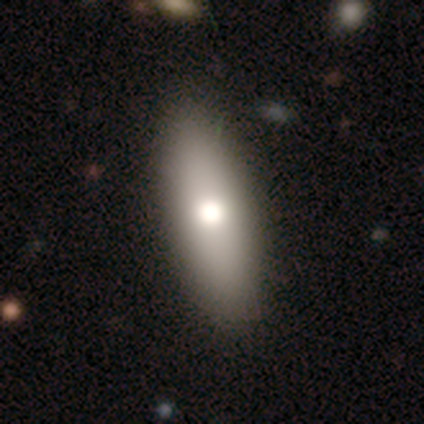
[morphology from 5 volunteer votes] A smooth galaxy with no disk features (100%) that is in between round and cigar-shaped (60%). Merging: none (80%).